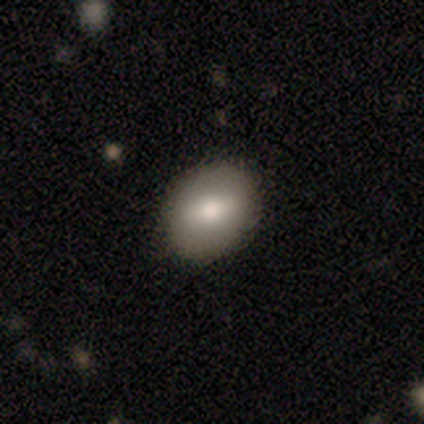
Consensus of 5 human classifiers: This appears to be a smooth galaxy with no disk features (80%) that is round (50%, tied with in between). Merging: none (100%).